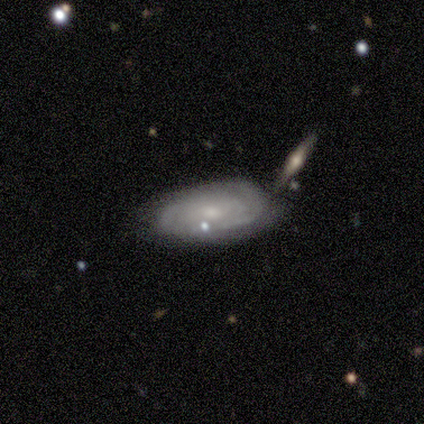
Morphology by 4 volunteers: This is clearly a featured or disk galaxy (100%). It is clearly not viewed edge-on (100%). Bar: possibly weak (50%). Spiral arm pattern: likely yes (75%). Spiral arm count: likely can't tell (67%). Spiral winding: likely tight (67%). Central bulge: likely moderate (75%). Merging: possibly major disturbance (50%).